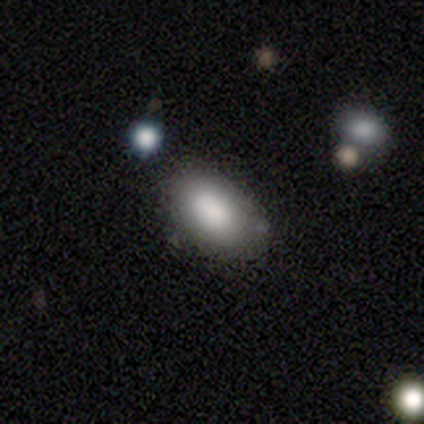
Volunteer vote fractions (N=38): Smooth or featured? 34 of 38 (89%) said smooth. How rounded? 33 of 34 (97%) said in between. Merging? 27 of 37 (73%) said none.